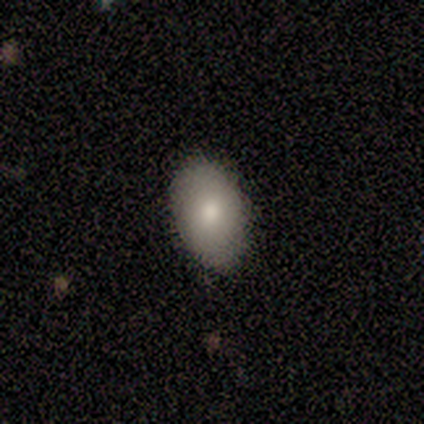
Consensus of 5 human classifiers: This is marginally a smooth galaxy (40%, tied with star or artifact). How rounded: clearly in between (100%). Merging: clearly none (100%).